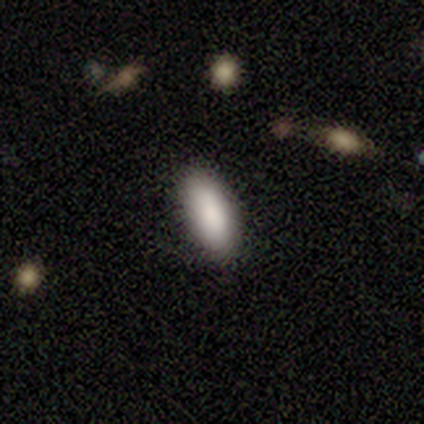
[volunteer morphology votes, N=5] Smooth or featured? smooth (100%)
How rounded? cigar-shaped (60%)
Merging? none (100%)